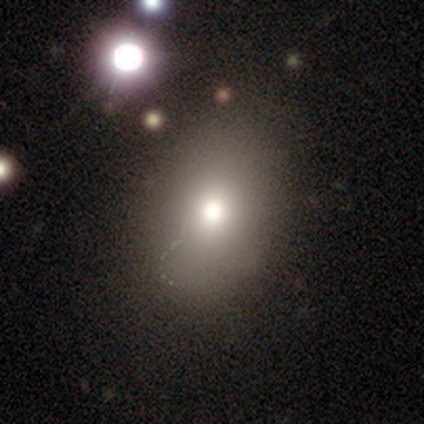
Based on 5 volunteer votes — Smooth or featured?
  - star or artifact: 80% *
  - smooth: 20%
  - featured or disk: 0%